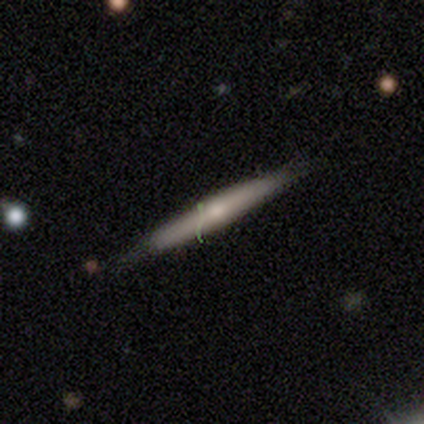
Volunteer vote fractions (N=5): smooth_or_featured: featured or disk (p=0.60) [alt: smooth p=0.40]
disk_edge_on: yes (p=1.00)
edge_on_bulge: rounded (p=0.67) [alt: none p=0.33]
merging: none (p=0.40) [tied with: minor disturbance p=0.40]